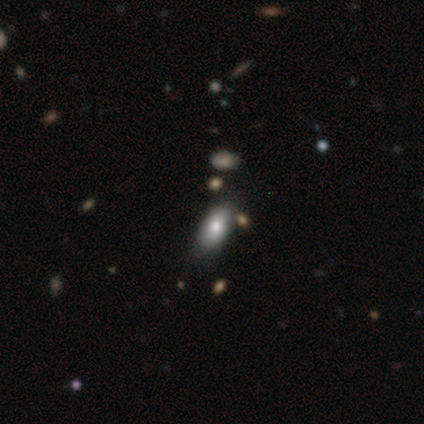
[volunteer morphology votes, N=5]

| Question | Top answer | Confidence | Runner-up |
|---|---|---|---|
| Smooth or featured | smooth | 60% | star or artifact (40%) |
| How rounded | in between | 100% | — |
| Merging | none | 100% | — |